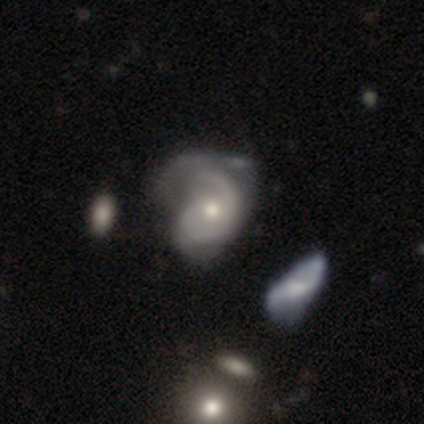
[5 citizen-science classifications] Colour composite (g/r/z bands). It shows a featured or disk galaxy (80%) with no bar (75%), 1 (75%) loose (75%) spiral arms (100%) and a moderate central bulge (100%). Merging: none (40%, tied with minor disturbance).